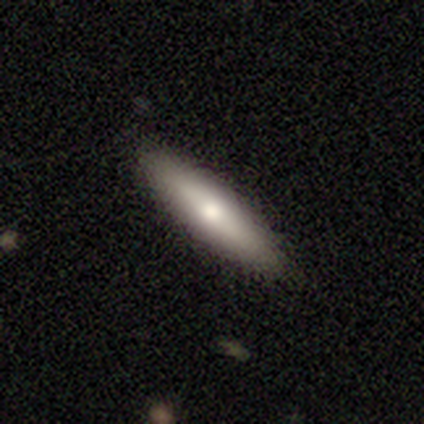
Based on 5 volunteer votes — Overall: smooth (60%; featured or disk 40%). How rounded: round (33%, tied with in between and cigar-shaped). Merging: none (80%).